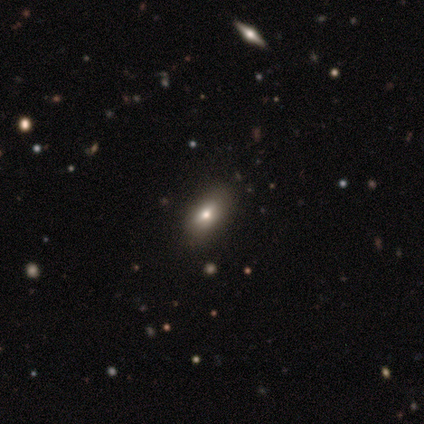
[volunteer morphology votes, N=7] A smooth galaxy with no disk features (86%) that is in between round and cigar-shaped (100%). Merging: none (71%).